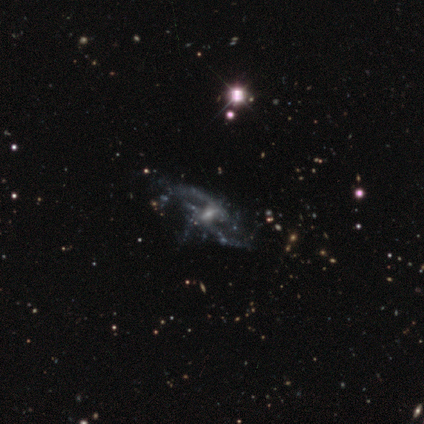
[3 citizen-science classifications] This appears to be a featured or disk galaxy (100%) with a strong bar (33%, tied with weak and no), 2 (100%) medium (50%, tied with loose) spiral arms (67%) and a small central bulge (67%). Merging: none (67%).